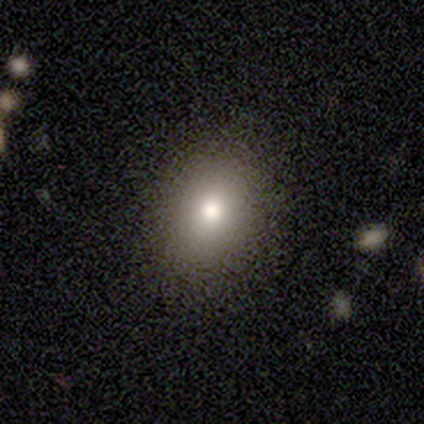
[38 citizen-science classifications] A smooth galaxy with no disk features (84%) that is in between round and cigar-shaped (59%). Merging: none (88%).